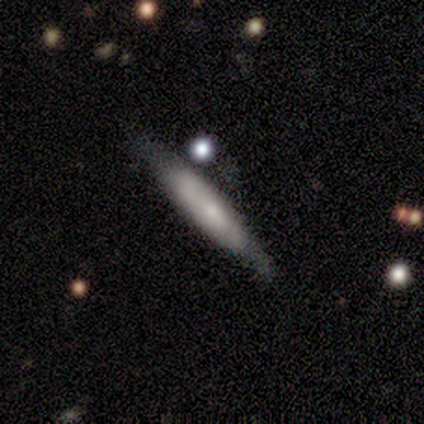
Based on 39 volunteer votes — Q: Smooth or featured?
A: smooth (46%); tied with: featured or disk (46%)
Q: How rounded?
A: cigar-shaped (89%); runner-up: in between (11%)
Q: Merging?
A: none (61%); runner-up: minor disturbance (31%)